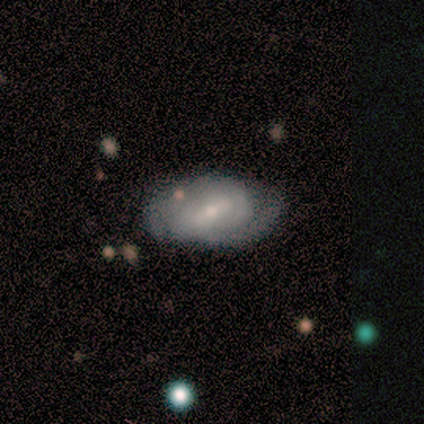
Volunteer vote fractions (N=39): smooth_or_featured: featured or disk (p=0.82) [alt: smooth p=0.13]
disk_edge_on: no (p=0.91) [alt: yes p=0.09]
bar: weak (p=0.69) [alt: strong p=0.24]
has_spiral_arms: yes (p=0.79) [alt: no p=0.21]
spiral_winding: medium (p=0.39) [alt: loose p=0.35]
spiral_arm_count: 2 (p=0.70) [alt: can't tell p=0.13]
bulge_size: small (p=0.66) [alt: moderate p=0.28]
merging: none (p=0.59) [alt: minor disturbance p=0.30]